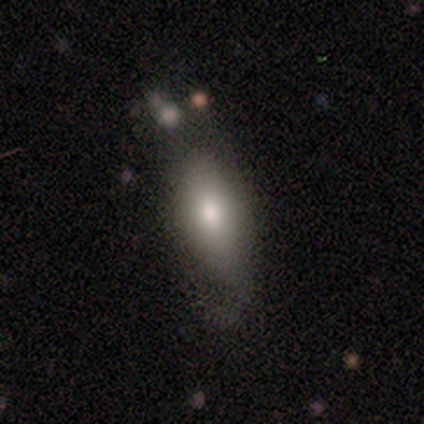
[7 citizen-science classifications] This is likely a smooth galaxy (71%). How rounded: clearly in between (80%). Merging: possibly minor disturbance (57%).